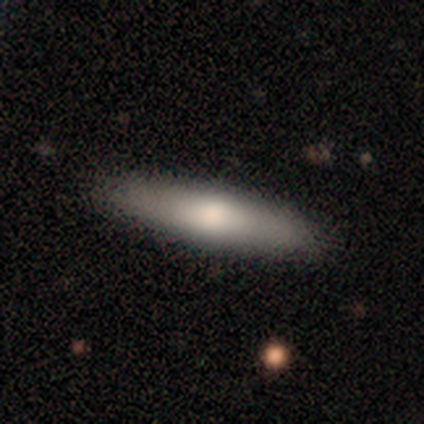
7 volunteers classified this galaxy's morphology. Smooth or featured?
  - smooth: 71% *
  - featured or disk: 29%
  - star or artifact: 0%
How rounded?
  - cigar-shaped: 80% *
  - in between: 20%
  - round: 0%
Merging?
  - none: 71% *
  - minor disturbance: 14%
  - major disturbance: 14%
  - merger: 0%